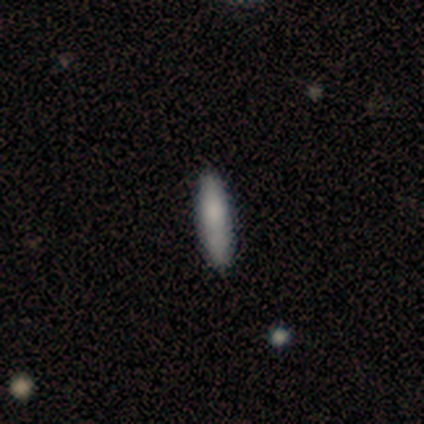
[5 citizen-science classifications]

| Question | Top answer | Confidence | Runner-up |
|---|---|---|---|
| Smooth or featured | smooth | 60% | featured or disk (40%) |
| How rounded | cigar-shaped | 67% | in between (33%) |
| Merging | none | 100% | — |